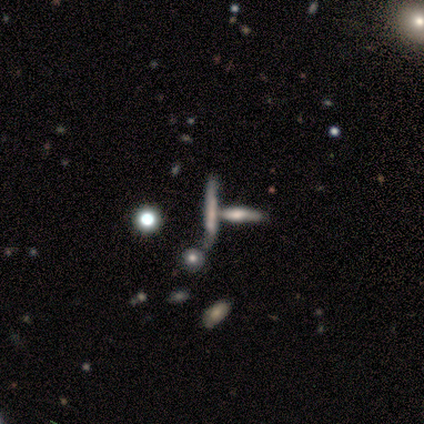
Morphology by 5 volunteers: Smooth or featured?
  - smooth: 80% *
  - star or artifact: 20%
  - featured or disk: 0%
How rounded?
  - cigar-shaped: 100% *
  - round: 0%
  - in between: 0%
Merging?
  - none: 100% *
  - minor disturbance: 0%
  - major disturbance: 0%
  - merger: 0%